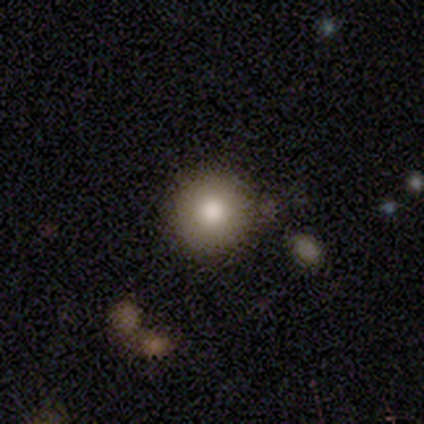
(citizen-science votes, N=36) smooth_or_featured: smooth (p=0.81) [alt: star or artifact p=0.11]
how_rounded: round (p=0.97) [alt: in between p=0.03]
merging: none (p=0.88) [alt: minor disturbance p=0.09]